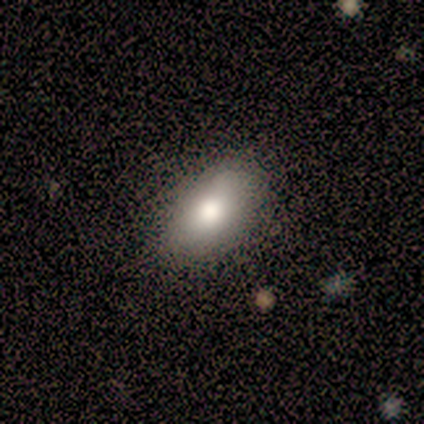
smooth 100%, featured or disk 0%, star or artifact 0%. Down the decision tree: how rounded — in between (100%); merging — none (100%).